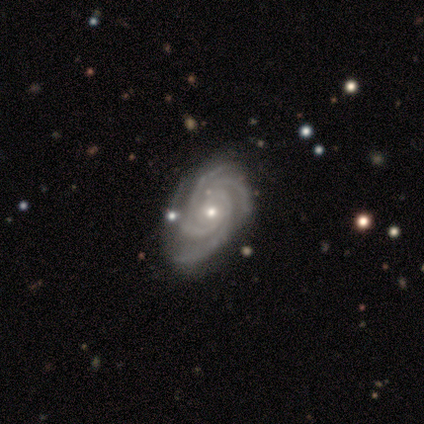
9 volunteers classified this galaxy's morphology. Smooth or featured? 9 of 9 (100%) said featured or disk. Edge-on disk? 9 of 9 (100%) said no. Bar? 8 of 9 (89%) said no. Spiral arms? 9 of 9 (100%) said yes. Spiral winding? 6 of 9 (67%) said tight. Spiral arm count? 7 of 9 (78%) said 4. Bulge size? 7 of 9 (78%) said small. Merging? 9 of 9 (100%) said none.